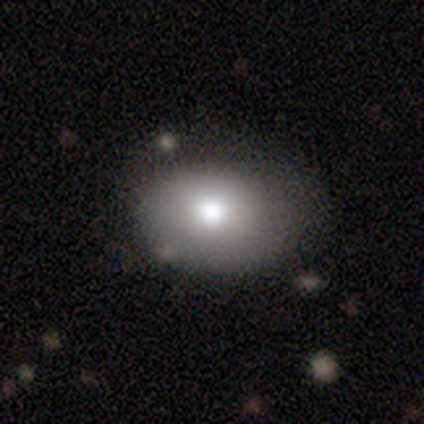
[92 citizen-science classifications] A smooth galaxy with no disk features (74%) that is in between round and cigar-shaped (71%).

Vote fractions:
- Smooth or featured? smooth: 74% / star or artifact: 14% / featured or disk: 12%
- How rounded? in between: 71% / round: 29% / cigar-shaped: 0%
- Merging? none: 70% / minor disturbance: 22% / major disturbance: 8% / merger: 1%